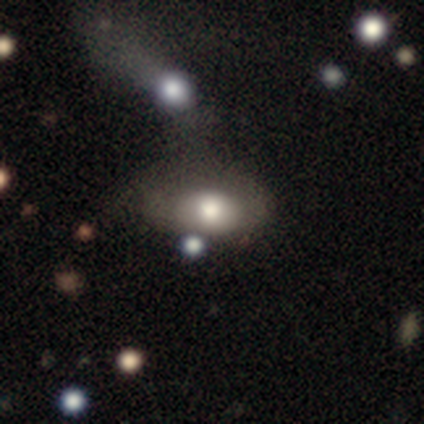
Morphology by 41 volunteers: This is likely a smooth galaxy (63%). How rounded: clearly in between (96%). Merging: marginally none (27%, tied with major disturbance).